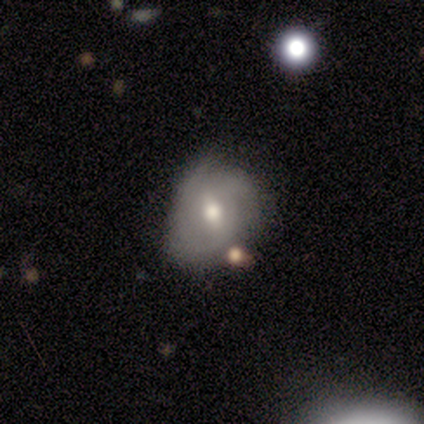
Volunteers were most divided on "smooth or featured" (2-way tie): smooth: 40%, featured or disk: 40%, star or artifact: 20%. More confident: how rounded — round (100%); merging — none (50%).